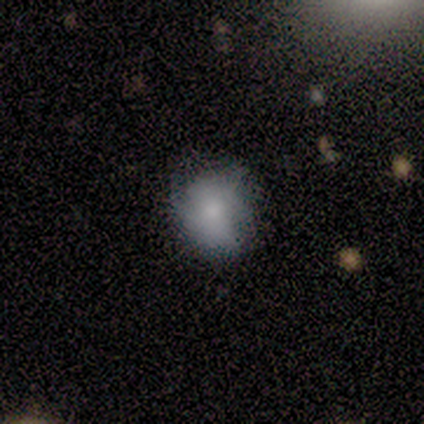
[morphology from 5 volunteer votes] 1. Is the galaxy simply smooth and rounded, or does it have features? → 80% smooth, 20% featured or disk, 0% star or artifact.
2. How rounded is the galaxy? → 50% round (tied), 50% in between (tied), 0% cigar-shaped.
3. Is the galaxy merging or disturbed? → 80% none, 20% minor disturbance, 0% major disturbance, 0% merger.